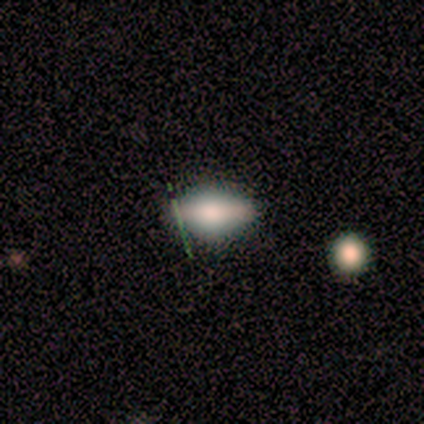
smooth_or_featured: smooth (p=0.86) [alt: featured or disk p=0.14]
how_rounded: in between (p=0.83) [alt: round p=0.17]
merging: none (p=0.86) [alt: minor disturbance p=0.14]